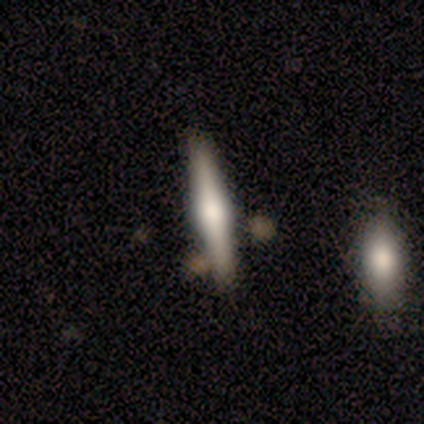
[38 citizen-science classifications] A featured or disk galaxy (71%) viewed edge-on (93%) with a rounded central bulge (88%). Merging: none (84%).